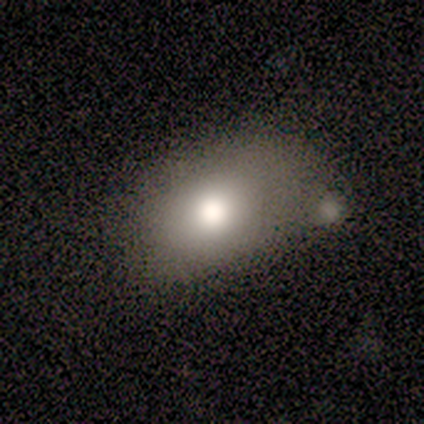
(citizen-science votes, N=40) Overall: smooth (75%). How rounded: in between (83%). Merging: none (39%; merger 19%).